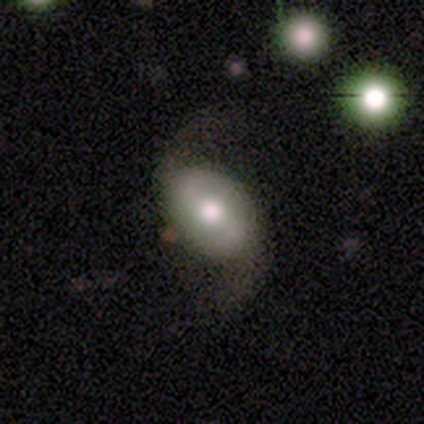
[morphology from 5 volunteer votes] Smooth or featured?
  - featured or disk: 60% *
  - smooth: 40%
  - star or artifact: 0%
Edge-on disk?
  - no: 100% *
  - yes: 0%
Bar?
  - strong: 33% * (tied)
  - weak: 33% * (tied)
  - no: 33% * (tied)
Spiral arms?
  - yes: 100% *
  - no: 0%
Spiral winding?
  - loose: 100% *
  - tight: 0%
  - medium: 0%
Spiral arm count?
  - 2: 100% *
  - 1: 0%
  - 3: 0%
  - 4: 0%
  - more than 4: 0%
  - can't tell: 0%
Bulge size?
  - large: 67% *
  - moderate: 33%
  - dominant: 0%
  - small: 0%
  - none: 0%
Merging?
  - none: 60% *
  - major disturbance: 40%
  - minor disturbance: 0%
  - merger: 0%